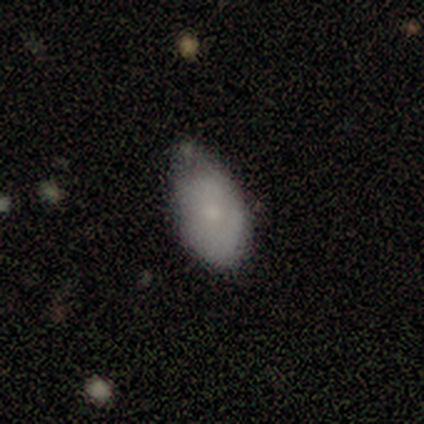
Q: Smooth or featured?
A: smooth (74%); runner-up: featured or disk (22%)
Q: How rounded?
A: in between (99%); runner-up: round (1%)
Q: Merging?
A: minor disturbance (55%); runner-up: none (37%)